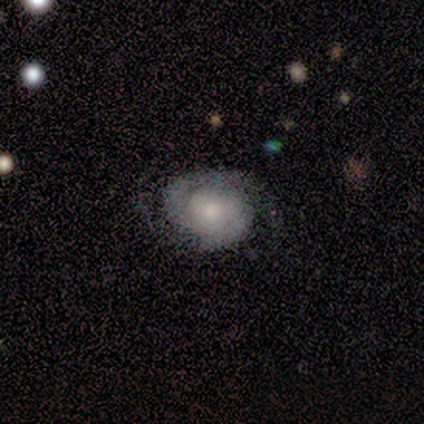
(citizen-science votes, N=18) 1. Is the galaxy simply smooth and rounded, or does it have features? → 83% featured or disk, 11% smooth, 6% star or artifact.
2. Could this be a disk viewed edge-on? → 100% no, 0% yes.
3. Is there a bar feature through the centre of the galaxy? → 87% no, 13% weak, 0% strong.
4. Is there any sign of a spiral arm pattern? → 100% yes, 0% no.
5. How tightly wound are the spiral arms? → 47% tight, 40% medium, 13% loose.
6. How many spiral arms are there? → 80% 2, 13% can't tell, 7% 3, 0% 1, 0% 4, 0% more than 4.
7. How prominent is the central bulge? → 40% moderate, 33% small, 20% large, 7% none, 0% dominant.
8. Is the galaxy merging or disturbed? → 82% none, 12% minor disturbance, 6% major disturbance, 0% merger.